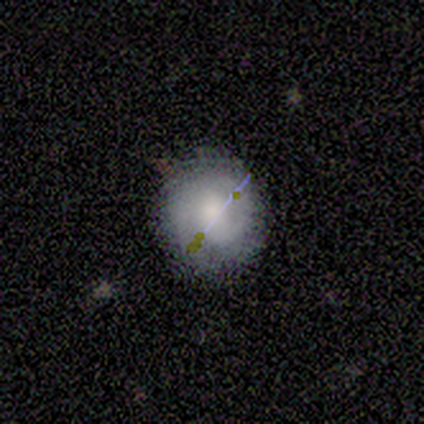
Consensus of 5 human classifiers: smooth-or-featured: smooth: 40% (tied) | featured or disk: 40% (tied) | star or artifact: 20%
  how-rounded: round: 100% | in between: 0% | cigar-shaped: 0%
  merging: none: 100% | minor disturbance: 0% | major disturbance: 0% | merger: 0%